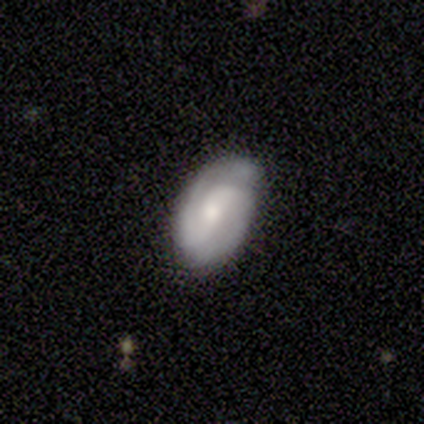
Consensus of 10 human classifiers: smooth_or_featured: featured or disk (p=0.90) [alt: smooth p=0.10]
disk_edge_on: no (p=1.00)
bar: weak (p=0.56) [alt: no p=0.44]
has_spiral_arms: yes (p=1.00)
spiral_winding: medium (p=0.56) [alt: tight p=0.22]
spiral_arm_count: 2 (p=1.00)
bulge_size: small (p=0.67) [alt: moderate p=0.22]
merging: none (p=0.80) [alt: minor disturbance p=0.20]